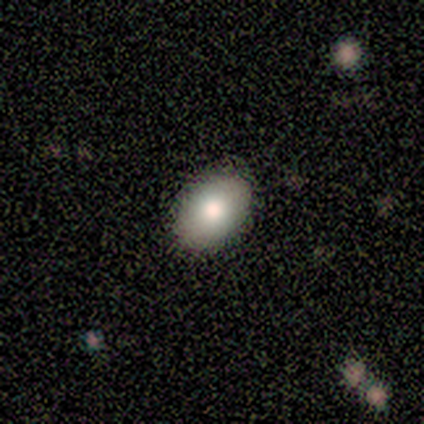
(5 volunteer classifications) Overall: smooth (80%). How rounded: in between (100%). Merging: none (100%).